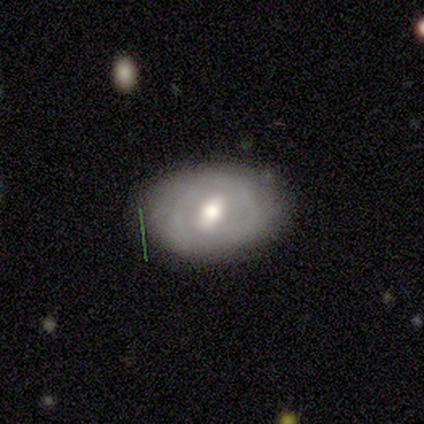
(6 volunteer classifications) Smooth or featured?
  - smooth: 50% * (tied)
  - featured or disk: 50% * (tied)
  - star or artifact: 0%
How rounded?
  - in between: 100% *
  - round: 0%
  - cigar-shaped: 0%
Merging?
  - none: 83% *
  - minor disturbance: 17%
  - major disturbance: 0%
  - merger: 0%